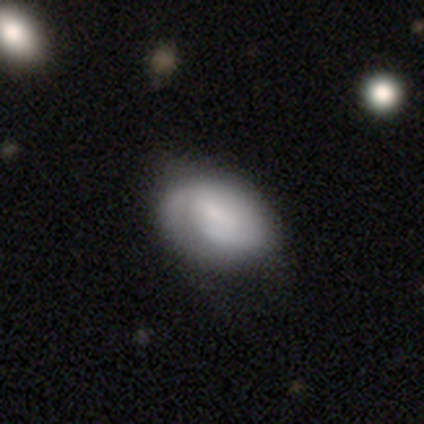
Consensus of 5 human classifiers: This appears to be a smooth galaxy with no disk features (60%) that is in between round and cigar-shaped (100%). Merging: none (80%).